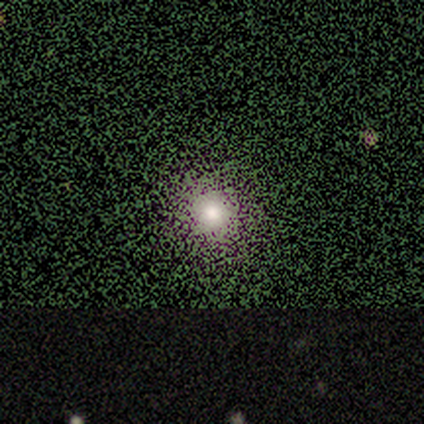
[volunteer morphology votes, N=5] Overall: star or artifact (80%).